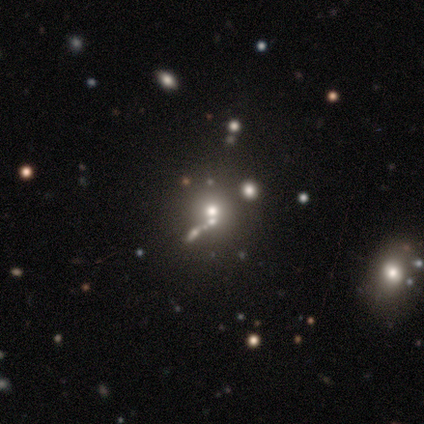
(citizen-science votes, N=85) Volunteers were most divided on "smooth or featured": star or artifact: 44%, smooth: 36%, featured or disk: 20%.